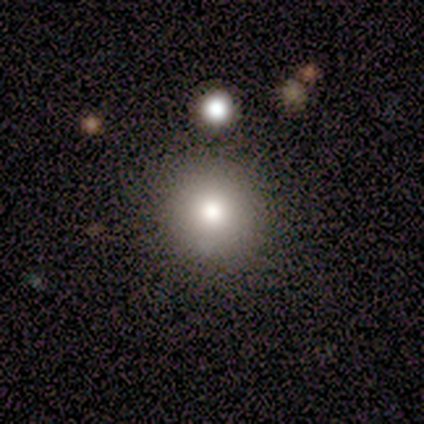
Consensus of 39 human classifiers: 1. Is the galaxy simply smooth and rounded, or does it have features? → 67% smooth, 21% featured or disk, 13% star or artifact.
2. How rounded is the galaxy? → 96% round, 4% in between, 0% cigar-shaped.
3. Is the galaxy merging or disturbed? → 94% none, 6% merger, 0% minor disturbance, 0% major disturbance.